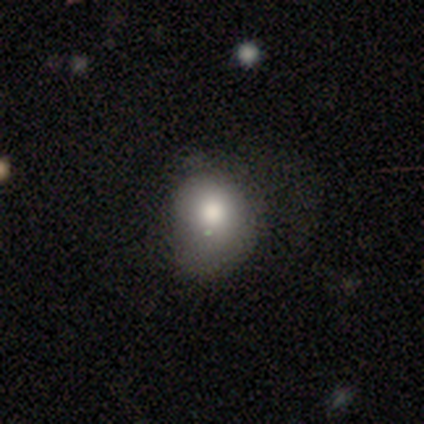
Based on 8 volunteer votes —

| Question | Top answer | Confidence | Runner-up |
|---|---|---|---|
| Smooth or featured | smooth | 100% | — |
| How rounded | round | 75% | in between (25%) |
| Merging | none | 38% | tied: minor disturbance (38%) |